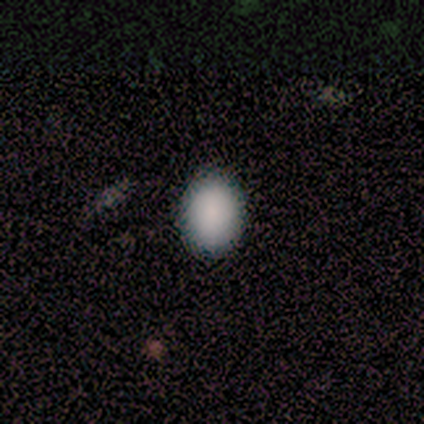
Volunteers were most divided on "how rounded": in between: 75%, round: 25%, cigar-shaped: 0%. More confident: merging — none (100%); smooth or featured — smooth (80%).